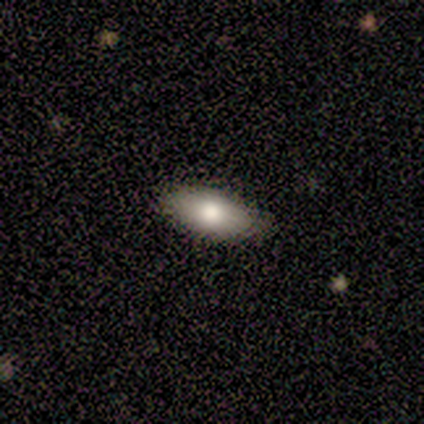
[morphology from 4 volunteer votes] Smooth or featured? smooth (75%)
How rounded? in between (100%)
Merging? none (75%)